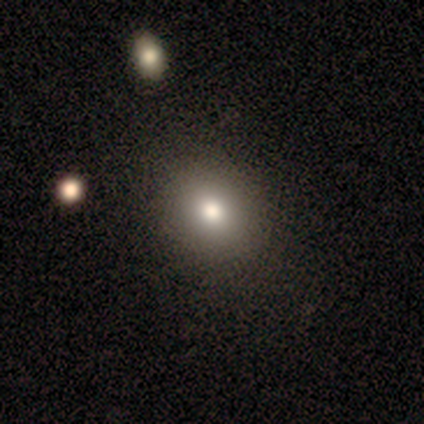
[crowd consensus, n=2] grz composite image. It shows a smooth galaxy with no disk features (100%) that is round (50%, tied with in between). Merging: none (100%).